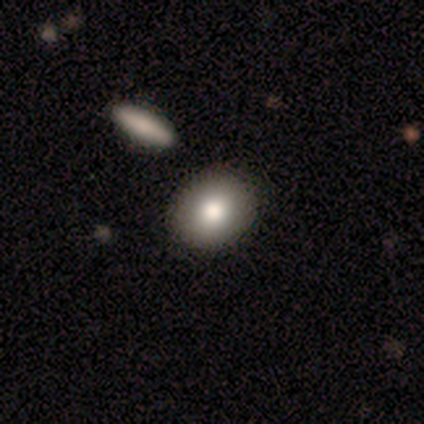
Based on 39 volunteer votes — Overall: smooth (85%). How rounded: round (55%; in between 45%). Merging: none (89%).